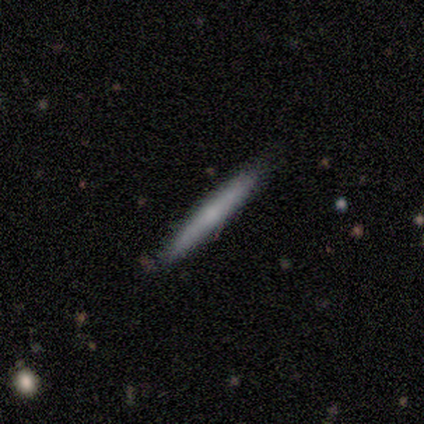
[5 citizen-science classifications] Smooth or featured: smooth — 100%
How rounded: cigar-shaped — 80% (in between — 20%)
Merging: none — 80% (merger — 20%)